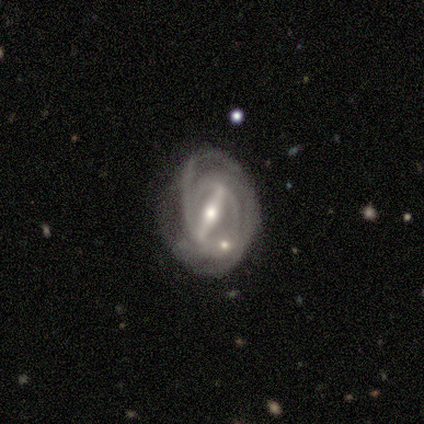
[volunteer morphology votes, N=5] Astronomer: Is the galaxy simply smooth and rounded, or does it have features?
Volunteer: featured or disk — 80%.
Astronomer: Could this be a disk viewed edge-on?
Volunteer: no — 75%.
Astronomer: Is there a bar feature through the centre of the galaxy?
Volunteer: strong — 67%.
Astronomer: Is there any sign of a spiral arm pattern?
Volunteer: yes — 100%.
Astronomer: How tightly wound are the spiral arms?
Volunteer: tight — 67%.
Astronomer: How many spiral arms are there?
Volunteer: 3 — 33%, tied with 4 and can't tell at 33%.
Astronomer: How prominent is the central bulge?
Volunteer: moderate — 67%.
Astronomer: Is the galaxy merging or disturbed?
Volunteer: none — 100%.